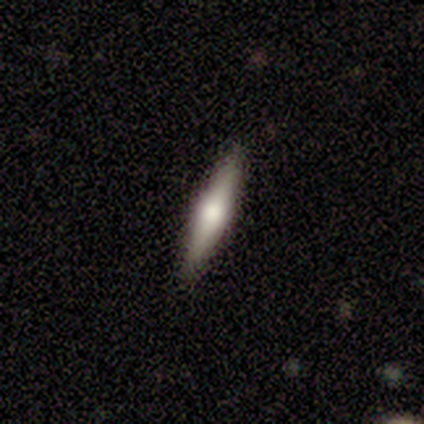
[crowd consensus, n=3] A featured or disk galaxy (100%) viewed edge-on (100%) with a rounded central bulge (100%). Merging: none (100%).